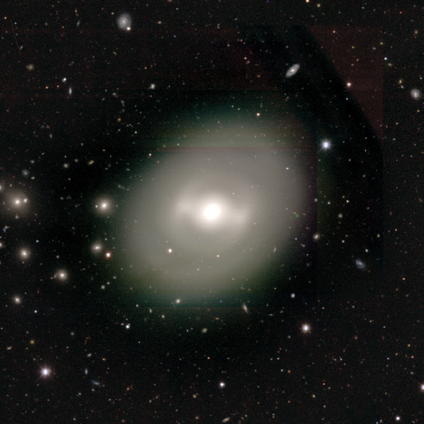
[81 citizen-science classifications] Overall: featured or disk (62%; smooth 32%). Edge-on disk: no (98%). Bar: strong (51%; weak 33%). Spiral arms: no (80%). Bulge size: moderate (61%; large 37%). Merging: none (84%).